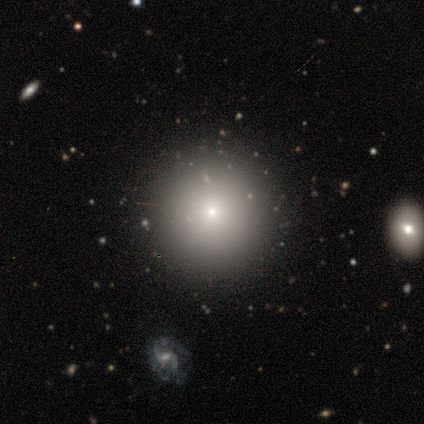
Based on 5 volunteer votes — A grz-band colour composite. It shows a star or artifact, not a galaxy (60%).